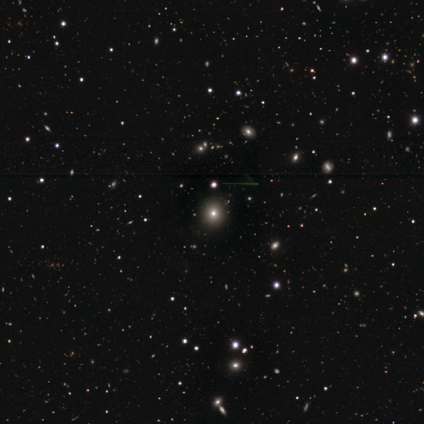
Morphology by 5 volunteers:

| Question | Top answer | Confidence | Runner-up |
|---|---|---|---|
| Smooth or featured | smooth | 60% | star or artifact (40%) |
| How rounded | round | 67% | in between (33%) |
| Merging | none | 100% | — |